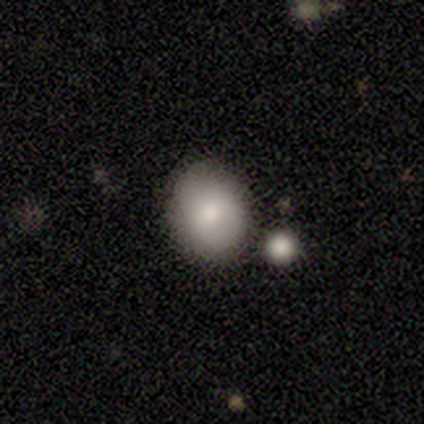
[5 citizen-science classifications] Volunteers were most divided on "how rounded": round: 60%, in between: 40%, cigar-shaped: 0%. More confident: smooth or featured — smooth (100%); merging — none (80%).